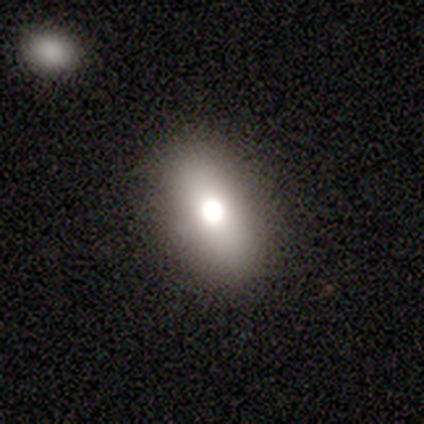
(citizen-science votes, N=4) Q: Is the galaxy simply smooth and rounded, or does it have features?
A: smooth — 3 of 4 (75%).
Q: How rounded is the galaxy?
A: in between — 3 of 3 (100%).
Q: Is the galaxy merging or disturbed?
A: none — 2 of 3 (67%).